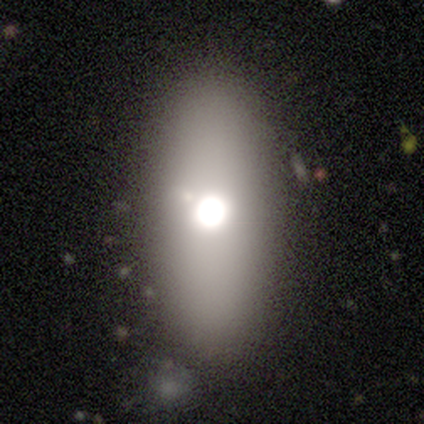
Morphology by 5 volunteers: Smooth or featured: smooth — 60% (featured or disk — 40%)
How rounded: in between — 100%
Merging: none — 100%